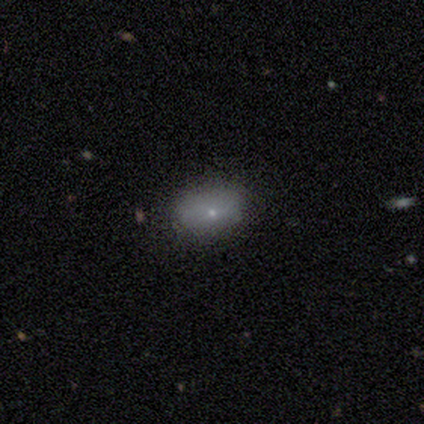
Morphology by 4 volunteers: Overall: smooth (50%; featured or disk 25%). How rounded: in between (100%). Merging: none (67%; minor disturbance 33%).